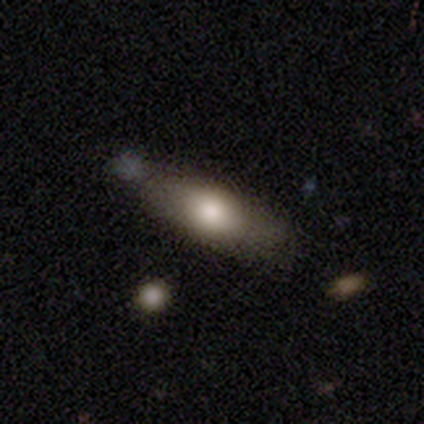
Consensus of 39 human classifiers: smooth 74%, featured or disk 21%, star or artifact 5%. Down the decision tree: how rounded — in between (52%); merging — none (65%).